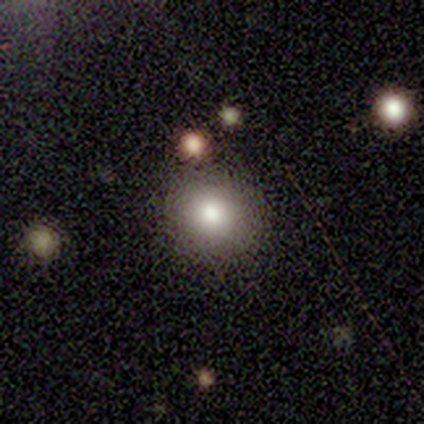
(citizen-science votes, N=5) smooth_or_featured: smooth (p=0.80) [alt: featured or disk p=0.20]
how_rounded: round (p=1.00)
merging: none (p=0.60) [alt: minor disturbance p=0.40]